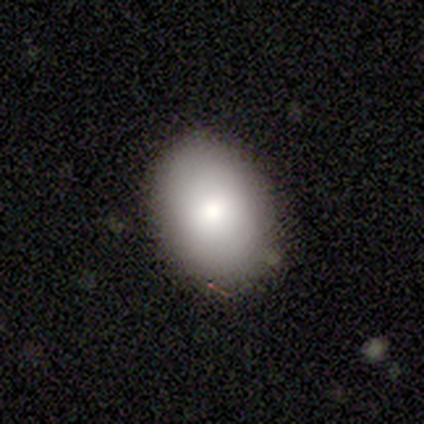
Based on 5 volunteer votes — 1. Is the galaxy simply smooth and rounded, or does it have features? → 60% smooth, 40% star or artifact, 0% featured or disk.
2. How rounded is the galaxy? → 67% in between, 33% round, 0% cigar-shaped.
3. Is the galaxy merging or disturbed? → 67% none, 33% minor disturbance, 0% major disturbance, 0% merger.